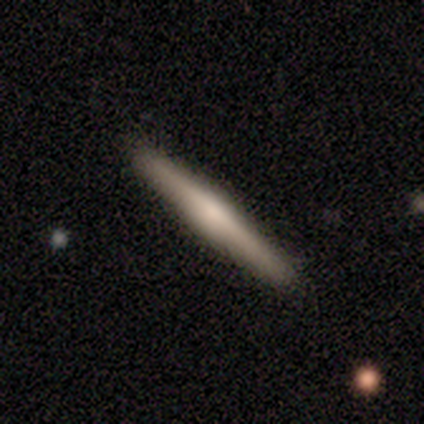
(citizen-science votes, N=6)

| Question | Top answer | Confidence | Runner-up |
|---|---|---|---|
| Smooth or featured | smooth | 50% | tied: featured or disk (50%) |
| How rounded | cigar-shaped | 100% | — |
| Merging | none | 100% | — |